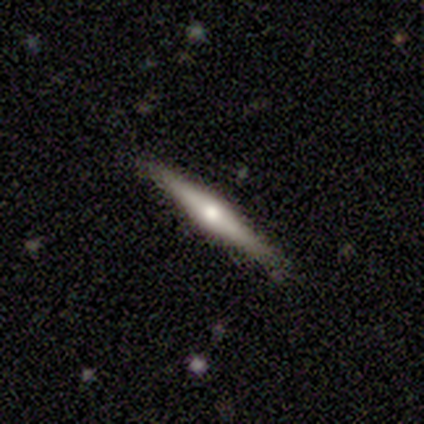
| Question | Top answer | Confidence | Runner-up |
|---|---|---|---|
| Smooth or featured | featured or disk | 75% | star or artifact (25%) |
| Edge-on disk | yes | 100% | — |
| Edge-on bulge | rounded | 100% | — |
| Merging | none | 100% | — |